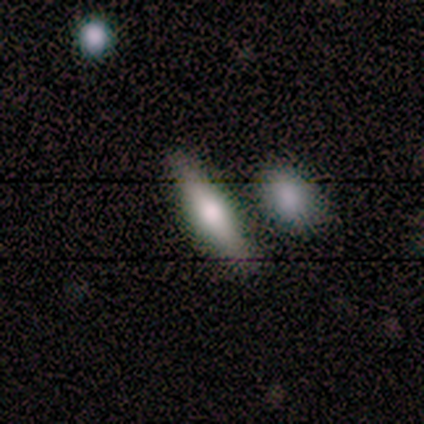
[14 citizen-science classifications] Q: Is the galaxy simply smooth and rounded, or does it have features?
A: smooth — 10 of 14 (71%).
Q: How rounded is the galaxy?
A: in between — 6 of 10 (60%).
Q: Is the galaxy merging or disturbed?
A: none — 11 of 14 (79%).